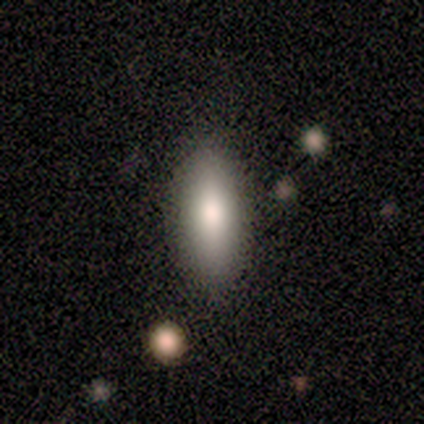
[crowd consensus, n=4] smooth_or_featured: smooth (p=0.75) [alt: featured or disk p=0.25]
how_rounded: cigar-shaped (p=0.67) [alt: in between p=0.33]
merging: none (p=0.75) [alt: minor disturbance p=0.25]